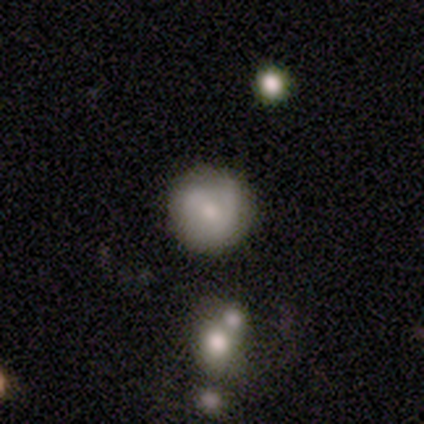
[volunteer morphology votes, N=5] A featured or disk galaxy (60%) with a weak bar (67%), no spiral arms (67%) and a moderate central bulge (100%).

Vote fractions:
- Smooth or featured? featured or disk: 60% / smooth: 40% / star or artifact: 0%
- Edge-on disk? no: 100% / yes: 0%
- Bar? weak: 67% / no: 33% / strong: 0%
- Spiral arms? no: 67% / yes: 33%
- Bulge size? moderate: 100% / dominant: 0% / large: 0% / small: 0% / none: 0%
- Merging? none: 80% / minor disturbance: 20% / major disturbance: 0% / merger: 0%